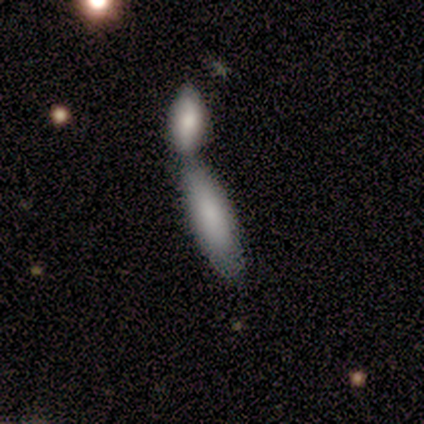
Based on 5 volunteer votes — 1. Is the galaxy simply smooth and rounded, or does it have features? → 60% smooth, 40% featured or disk, 0% star or artifact.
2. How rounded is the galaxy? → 67% in between, 33% cigar-shaped, 0% round.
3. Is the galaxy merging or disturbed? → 100% merger, 0% none, 0% minor disturbance, 0% major disturbance.